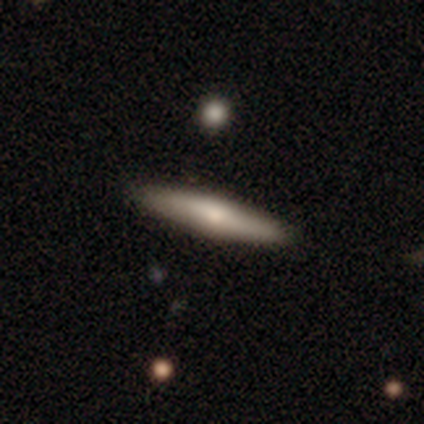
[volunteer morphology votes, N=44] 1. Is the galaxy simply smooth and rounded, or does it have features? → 57% smooth, 34% featured or disk, 9% star or artifact.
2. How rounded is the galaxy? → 96% cigar-shaped, 4% in between, 0% round.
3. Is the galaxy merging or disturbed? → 88% none, 10% minor disturbance, 2% merger, 0% major disturbance.